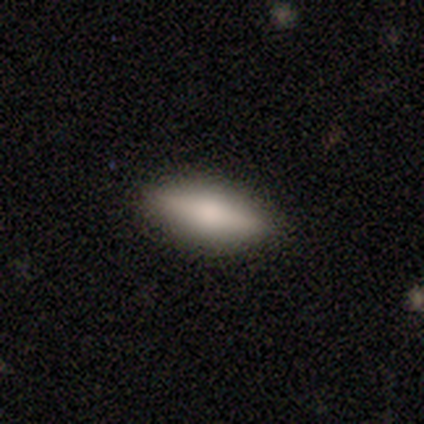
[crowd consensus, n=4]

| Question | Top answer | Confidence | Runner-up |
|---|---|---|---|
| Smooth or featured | smooth | 75% | featured or disk (25%) |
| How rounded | in between | 67% | cigar-shaped (33%) |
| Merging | none | 100% | — |